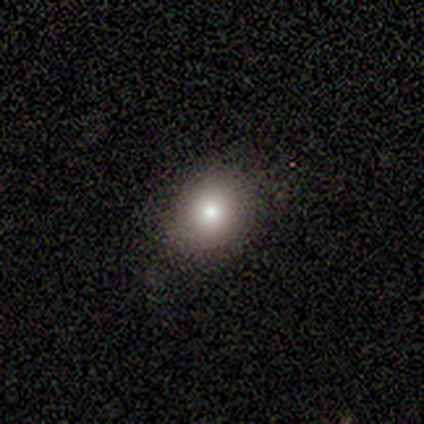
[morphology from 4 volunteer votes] This is likely a smooth galaxy (75%). How rounded: likely round (67%). Merging: likely none (75%).